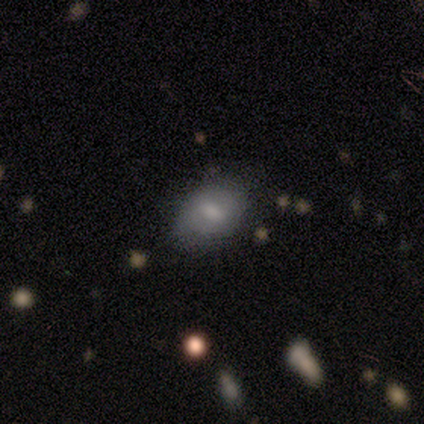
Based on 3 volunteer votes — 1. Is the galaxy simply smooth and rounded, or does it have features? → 67% smooth, 33% featured or disk, 0% star or artifact.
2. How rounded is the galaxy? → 100% in between, 0% round, 0% cigar-shaped.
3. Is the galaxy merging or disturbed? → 67% none, 33% minor disturbance, 0% major disturbance, 0% merger.